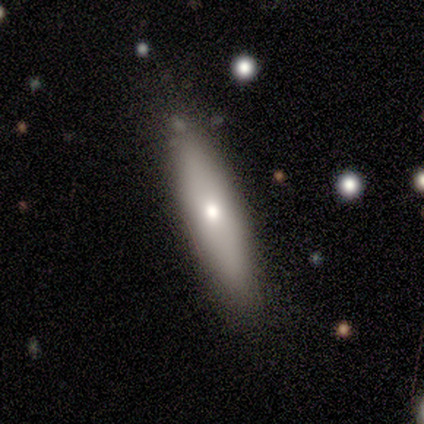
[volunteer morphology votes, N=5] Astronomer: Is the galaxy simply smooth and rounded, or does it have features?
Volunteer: smooth — 80%.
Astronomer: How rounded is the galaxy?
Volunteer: cigar-shaped — 100%.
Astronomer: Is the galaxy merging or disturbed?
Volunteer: none — 100%.